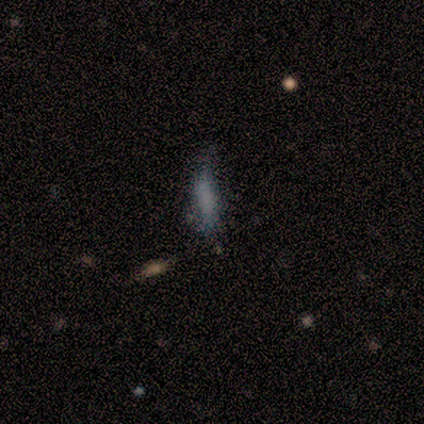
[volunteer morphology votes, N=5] Smooth or featured? 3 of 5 (60%) said smooth. How rounded? 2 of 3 (67%) said cigar-shaped. Merging? 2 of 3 (67%) said minor disturbance.